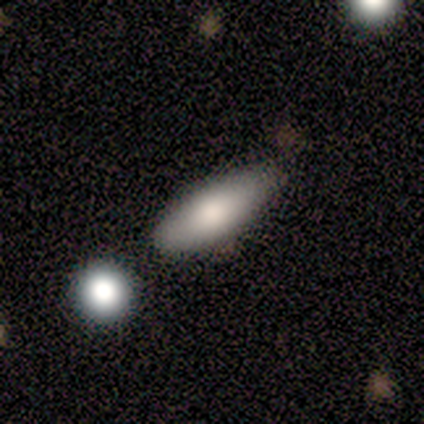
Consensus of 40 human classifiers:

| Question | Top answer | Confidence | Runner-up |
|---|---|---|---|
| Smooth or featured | smooth | 80% | featured or disk (12%) |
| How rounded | in between | 78% | cigar-shaped (22%) |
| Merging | none | 57% | minor disturbance (5%) |